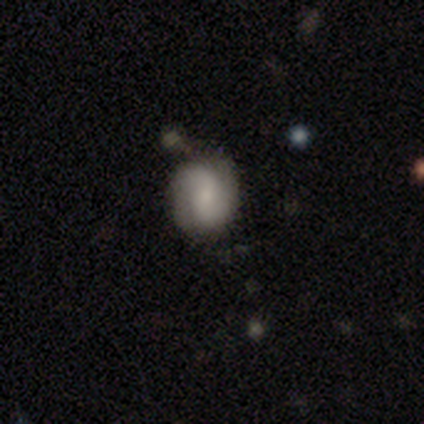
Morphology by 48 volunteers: Q: Smooth or featured?
A: featured or disk (50%); runner-up: smooth (44%)
Q: Edge-on disk?
A: no (100%)
Q: Bar?
A: no (46%); runner-up: weak (42%)
Q: Spiral arms?
A: yes (96%); runner-up: no (4%)
Q: Spiral winding?
A: loose (39%); runner-up: tight (30%)
Q: Spiral arm count?
A: 2 (91%); runner-up: 1 (4%)
Q: Bulge size?
A: small (62%); runner-up: moderate (21%)
Q: Merging?
A: none (71%); runner-up: minor disturbance (22%)